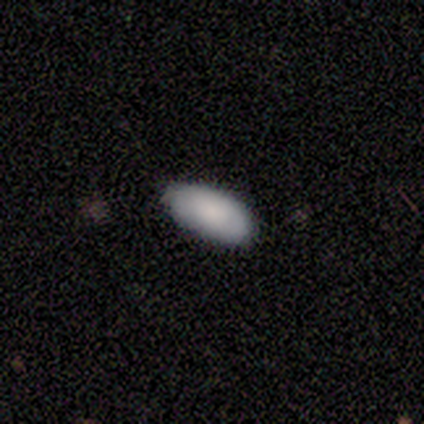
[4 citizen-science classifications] smooth-or-featured: smooth: 75% | star or artifact: 25% | featured or disk: 0%
  how-rounded: in between: 100% | round: 0% | cigar-shaped: 0%
  merging: none: 67% | major disturbance: 33% | minor disturbance: 0% | merger: 0%